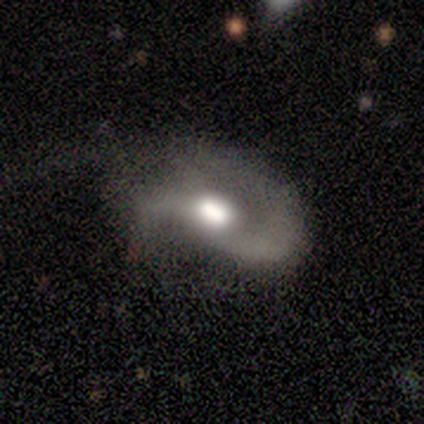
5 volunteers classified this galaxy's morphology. A featured or disk galaxy (80%) with no bar (75%), 1 (50%, tied with 2) medium (50%) spiral arms (100%) and a large central bulge (75%).

Vote fractions:
- Smooth or featured? featured or disk: 80% / smooth: 20% / star or artifact: 0%
- Edge-on disk? no: 100% / yes: 0%
- Bar? no: 75% / weak: 25% / strong: 0%
- Spiral arms? yes: 100% / no: 0%
- Spiral winding? medium: 50% / tight: 25% / loose: 25%
- Spiral arm count? 1: 50% (tied) / 2: 50% (tied) / 3: 0% / 4: 0% / more than 4: 0% / can't tell: 0%
- Bulge size? large: 75% / moderate: 25% / dominant: 0% / small: 0% / none: 0%
- Merging? major disturbance: 60% / none: 20% / minor disturbance: 20% / merger: 0%